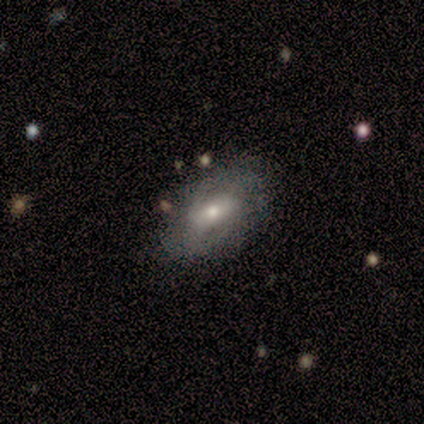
This is clearly a featured or disk galaxy (100%). It is clearly not viewed edge-on (100%). Bar: marginally strong (40%, tied with no). Spiral arm pattern: likely yes (60%). Spiral arm count: likely can't tell (67%). Spiral winding: likely loose (67%). Central bulge: likely moderate (60%). Merging: likely none (60%).